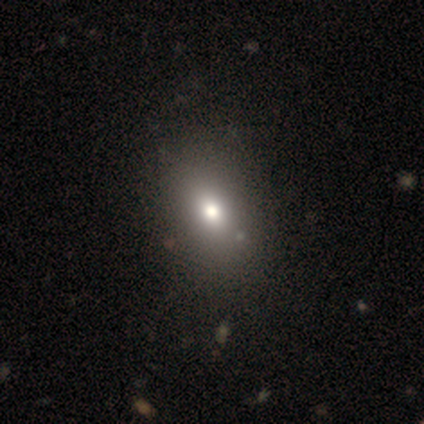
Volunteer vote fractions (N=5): smooth 60%, featured or disk 20%, star or artifact 20%. Down the decision tree: how rounded — in between (67%); merging — none (100%).